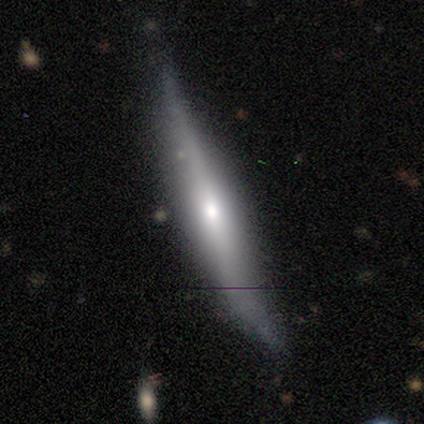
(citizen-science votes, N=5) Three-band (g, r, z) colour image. It shows a featured or disk galaxy (60%) viewed edge-on (100%) with a rounded central bulge (100%). Merging: minor disturbance (60%).